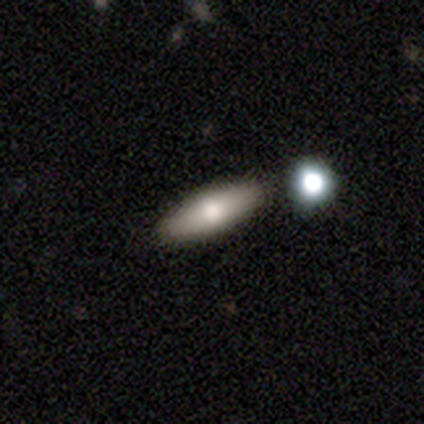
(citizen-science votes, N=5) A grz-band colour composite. It shows a smooth galaxy with no disk features (100%) that is in between round and cigar-shaped (100%). Merging: none (80%).